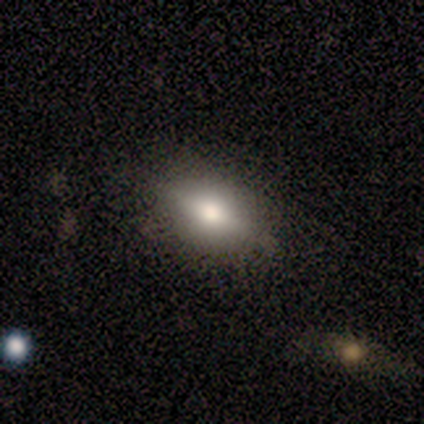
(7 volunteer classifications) Volunteers were most divided on "smooth or featured": smooth: 57%, featured or disk: 43%, star or artifact: 0%. More confident: how rounded — in between (100%); merging — none (71%).